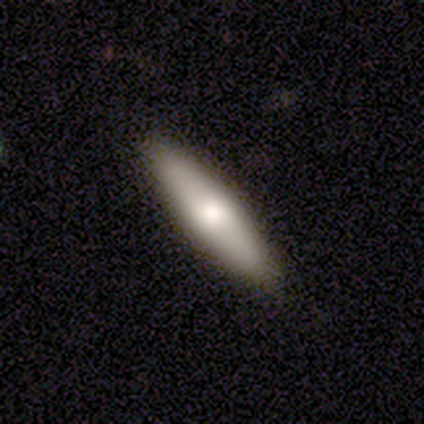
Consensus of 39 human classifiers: This appears to be a smooth galaxy with no disk features (59%) that is cigar-shaped (61%). Merging: none (89%).